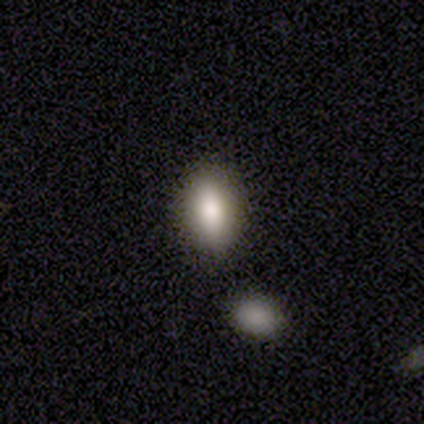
Smooth or featured? smooth (85%)
How rounded? in between (79%)
Merging? none (78%)